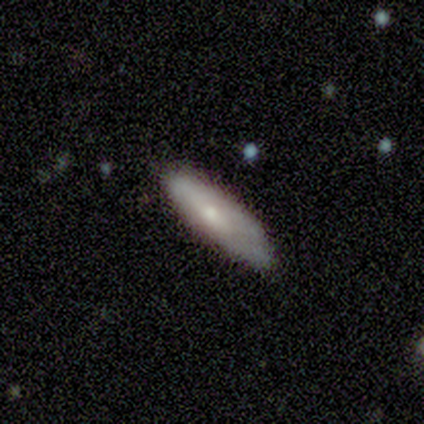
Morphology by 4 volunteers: Q: Smooth or featured?
A: smooth (75%); runner-up: featured or disk (25%)
Q: How rounded?
A: in between (67%); runner-up: cigar-shaped (33%)
Q: Merging?
A: none (75%); runner-up: minor disturbance (25%)